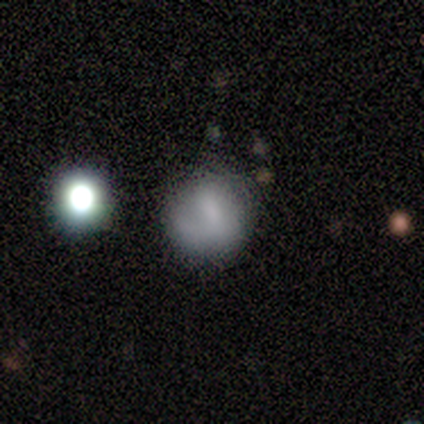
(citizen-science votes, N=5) Q: Smooth or featured?
A: featured or disk (80%); runner-up: smooth (20%)
Q: Edge-on disk?
A: no (100%)
Q: Bar?
A: weak (50%); runner-up: strong (25%)
Q: Spiral arms?
A: yes (100%)
Q: Spiral winding?
A: tight (50%); tied with: medium (50%)
Q: Spiral arm count?
A: 1 (100%)
Q: Bulge size?
A: none (75%); runner-up: moderate (25%)
Q: Merging?
A: minor disturbance (60%); runner-up: none (40%)